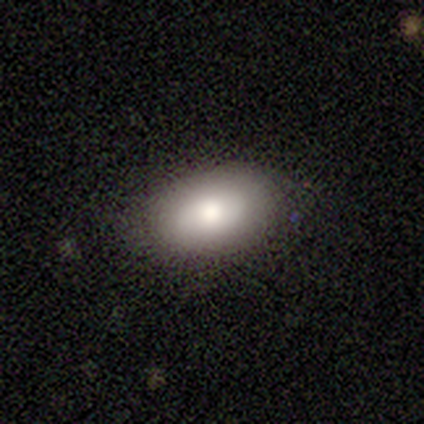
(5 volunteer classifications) Volunteers were most divided on "smooth or featured": smooth: 60%, featured or disk: 40%, star or artifact: 0%. More confident: how rounded — in between (100%); merging — none (100%).